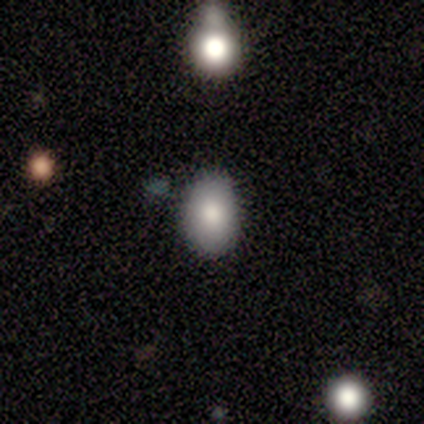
A smooth galaxy with no disk features (100%) that is round (60%). Merging: none (80%).